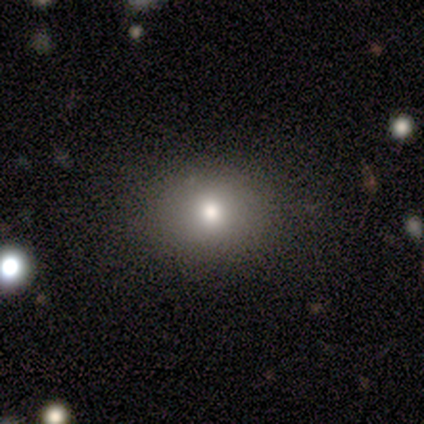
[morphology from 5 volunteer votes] Overall: smooth (80%). How rounded: round (50%, tied with in between). Merging: none (100%).